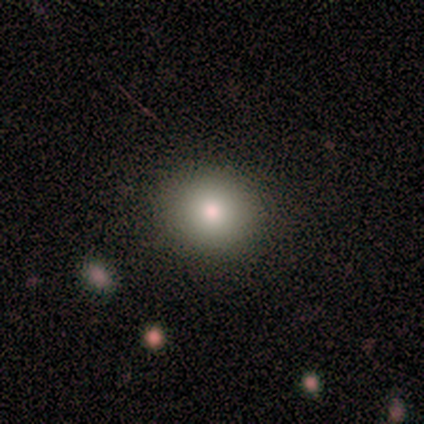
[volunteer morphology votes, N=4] A smooth galaxy with no disk features (75%) that is round (100%).

Vote fractions:
- Smooth or featured? smooth: 75% / featured or disk: 25% / star or artifact: 0%
- How rounded? round: 100% / in between: 0% / cigar-shaped: 0%
- Merging? none: 100% / minor disturbance: 0% / major disturbance: 0% / merger: 0%